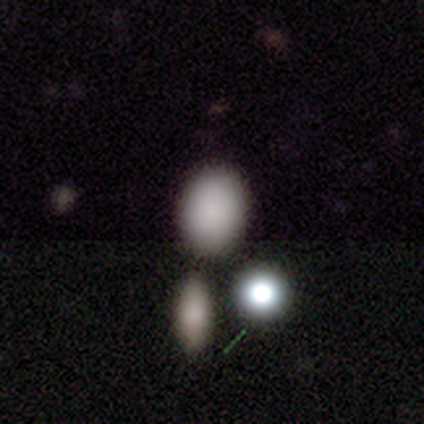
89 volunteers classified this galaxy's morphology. Overall: smooth (74%). How rounded: in between (70%; round 30%). Merging: none (77%).